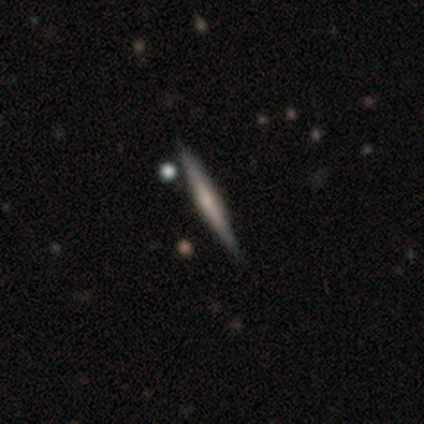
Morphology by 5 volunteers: Overall: featured or disk (80%). Edge-on disk: yes (100%). Edge-on bulge: none (75%). Merging: none (100%).